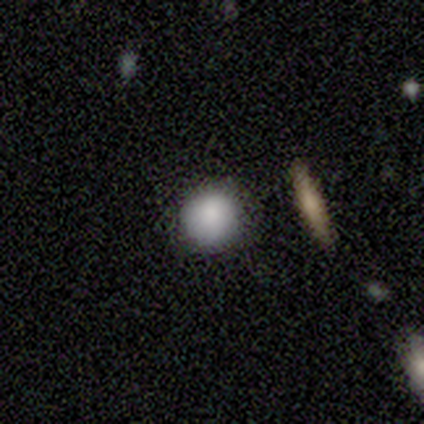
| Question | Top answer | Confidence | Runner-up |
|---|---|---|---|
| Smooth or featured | smooth | 100% | — |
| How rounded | round | 100% | — |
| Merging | none | 100% | — |